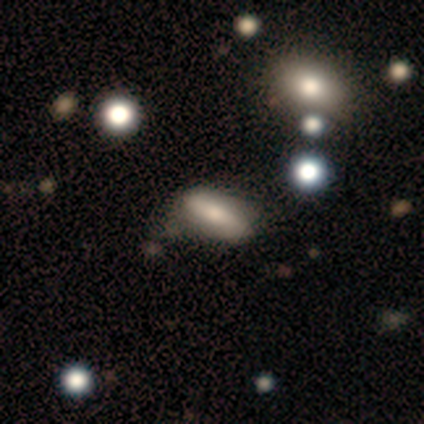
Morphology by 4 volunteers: Smooth or featured? 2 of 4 (50%, tied with featured or disk) said smooth. How rounded? 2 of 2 (100%) said in between. Merging? 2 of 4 (50%) said minor disturbance.